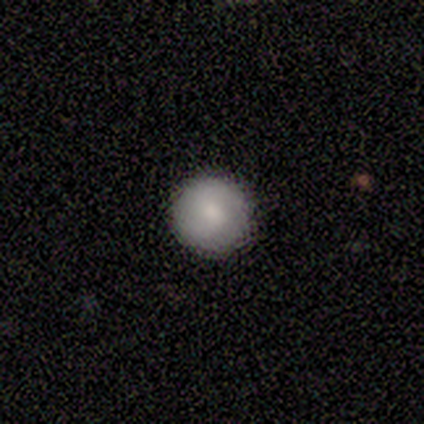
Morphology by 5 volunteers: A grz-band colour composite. It shows a smooth galaxy with no disk features (80%) that is round (100%). Merging: none (100%).